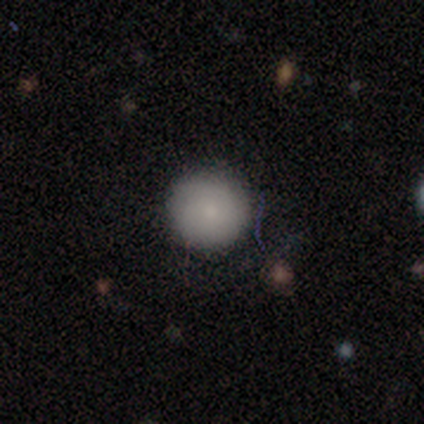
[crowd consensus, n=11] smooth-or-featured: smooth: 100% | featured or disk: 0% | star or artifact: 0%
  how-rounded: round: 100% | in between: 0% | cigar-shaped: 0%
  merging: none: 100% | minor disturbance: 0% | major disturbance: 0% | merger: 0%